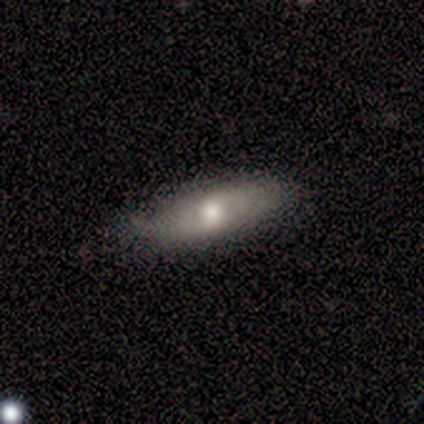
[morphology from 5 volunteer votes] A smooth galaxy with no disk features (60%) that is in between round and cigar-shaped (67%).

Vote fractions:
- Smooth or featured? smooth: 60% / featured or disk: 40% / star or artifact: 0%
- How rounded? in between: 67% / cigar-shaped: 33% / round: 0%
- Merging? none: 100% / minor disturbance: 0% / major disturbance: 0% / merger: 0%